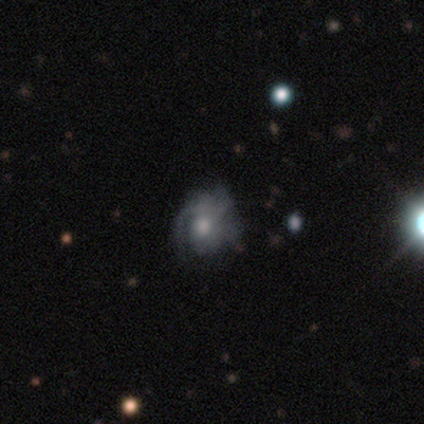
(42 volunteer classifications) Smooth or featured? 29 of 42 (69%) said featured or disk. Edge-on disk? 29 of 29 (100%) said no. Bar? 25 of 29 (86%) said no. Spiral arms? 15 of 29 (52%) said yes. Spiral winding? 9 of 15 (60%) said tight. Spiral arm count? 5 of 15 (33%) said 1. Bulge size? 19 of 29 (66%) said moderate. Merging? 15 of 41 (37%) said major disturbance.